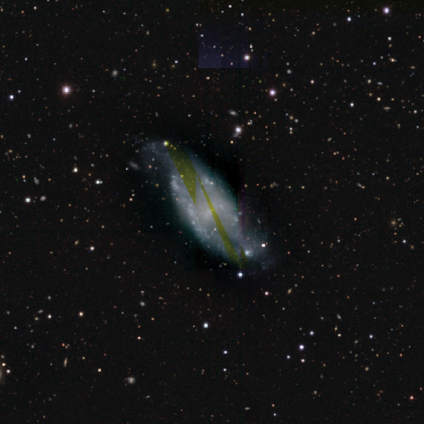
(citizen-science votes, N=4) Overall: smooth (75%). How rounded: in between (67%; cigar-shaped 33%). Merging: none (25%, tied with minor disturbance, major disturbance and merger).